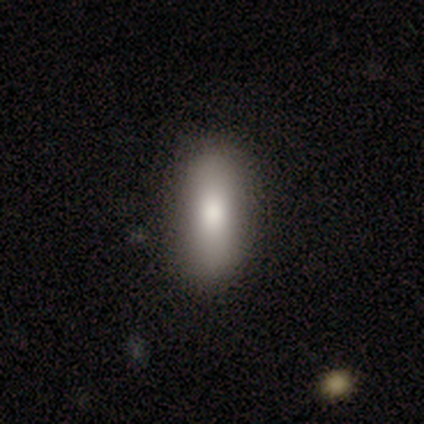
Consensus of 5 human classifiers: A smooth galaxy with no disk features (100%) that is in between round and cigar-shaped (80%). Merging: none (100%).